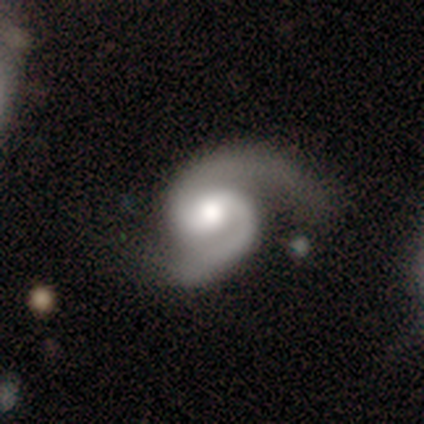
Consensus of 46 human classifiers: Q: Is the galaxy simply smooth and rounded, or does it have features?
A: featured or disk — 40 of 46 (87%).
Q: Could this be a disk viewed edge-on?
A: no — 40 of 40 (100%).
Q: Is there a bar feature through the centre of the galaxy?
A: weak — 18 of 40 (45%, tied with no).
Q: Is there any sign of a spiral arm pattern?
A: yes — 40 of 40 (100%).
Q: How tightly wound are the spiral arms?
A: medium — 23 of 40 (57%).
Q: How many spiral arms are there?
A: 2 — 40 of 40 (100%).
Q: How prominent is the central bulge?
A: moderate — 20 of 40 (50%).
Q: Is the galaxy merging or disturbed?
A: none — 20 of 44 (45%).